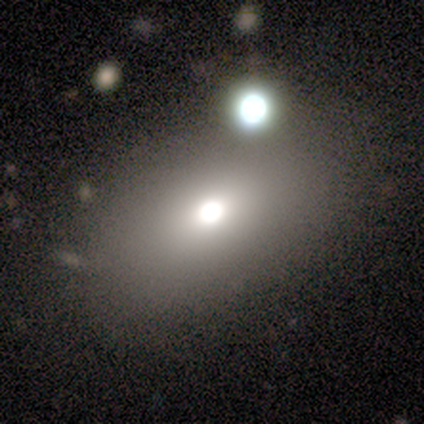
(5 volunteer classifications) Overall: smooth (100%). How rounded: in between (80%). Merging: none (60%; minor disturbance 40%).